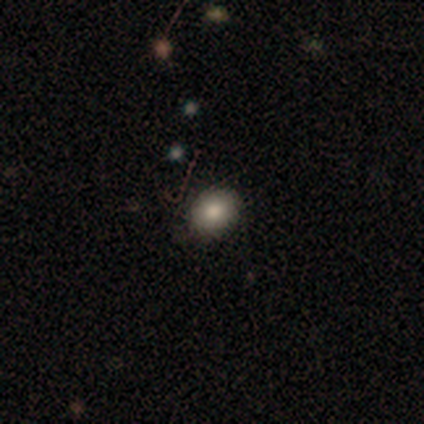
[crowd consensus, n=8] smooth_or_featured: smooth (p=1.00)
how_rounded: round (p=0.75) [alt: in between p=0.25]
merging: none (p=0.88) [alt: minor disturbance p=0.12]